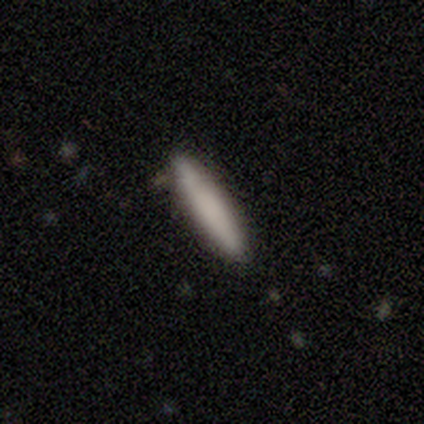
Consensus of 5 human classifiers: Smooth or featured: smooth — 80% (featured or disk — 20%)
How rounded: cigar-shaped — 100%
Merging: none — 80% (minor disturbance — 20%)